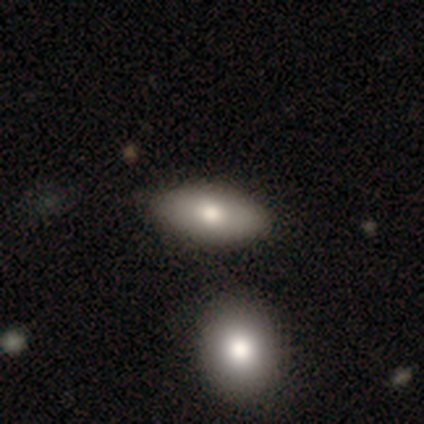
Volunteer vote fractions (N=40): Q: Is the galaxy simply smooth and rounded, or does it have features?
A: smooth — 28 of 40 (70%).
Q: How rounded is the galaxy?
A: in between — 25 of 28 (89%).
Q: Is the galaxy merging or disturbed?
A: none — 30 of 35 (86%).